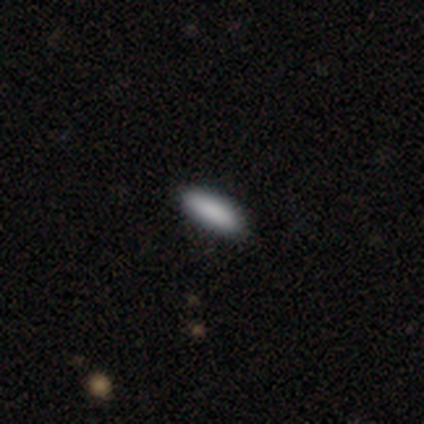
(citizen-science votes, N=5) This appears to be a smooth galaxy with no disk features (100%) that is cigar-shaped (80%). Merging: none (80%).